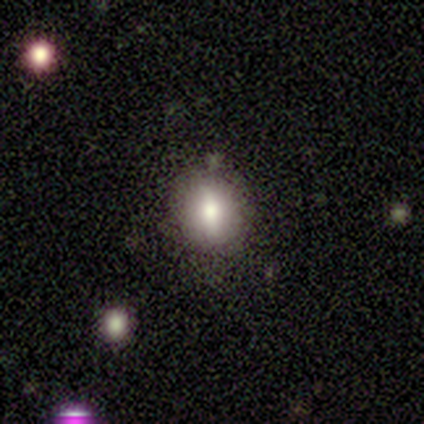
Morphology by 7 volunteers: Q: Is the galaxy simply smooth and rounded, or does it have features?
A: smooth — 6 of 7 (86%).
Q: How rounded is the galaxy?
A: round — 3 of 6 (50%, tied with in between).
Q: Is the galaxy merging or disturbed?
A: none — 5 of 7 (71%).